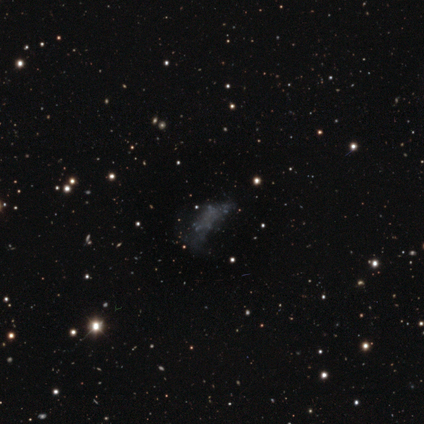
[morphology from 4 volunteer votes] Smooth or featured?
  - featured or disk: 50% * (tied)
  - star or artifact: 50% * (tied)
  - smooth: 0%
Edge-on disk?
  - no: 100% *
  - yes: 0%
Bar?
  - no: 100% *
  - strong: 0%
  - weak: 0%
Spiral arms?
  - no: 100% *
  - yes: 0%
Bulge size?
  - none: 100% *
  - dominant: 0%
  - large: 0%
  - moderate: 0%
  - small: 0%
Merging?
  - none: 50% * (tied)
  - major disturbance: 50% * (tied)
  - minor disturbance: 0%
  - merger: 0%